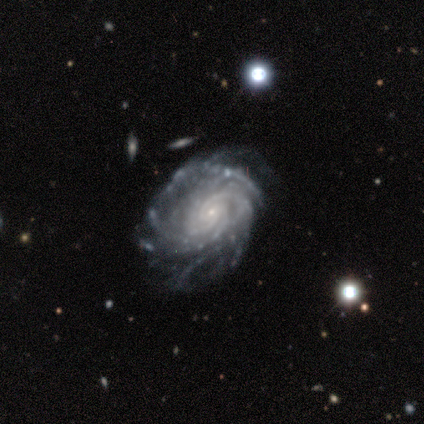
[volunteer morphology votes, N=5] Smooth or featured?
  - featured or disk: 100% *
  - smooth: 0%
  - star or artifact: 0%
Edge-on disk?
  - no: 100% *
  - yes: 0%
Bar?
  - weak: 40% * (tied)
  - no: 40% * (tied)
  - strong: 20%
Spiral arms?
  - yes: 100% *
  - no: 0%
Spiral winding?
  - tight: 100% *
  - medium: 0%
  - loose: 0%
Spiral arm count?
  - 4: 40% *
  - 2: 20%
  - 3: 20%
  - can't tell: 20%
  - 1: 0%
  - more than 4: 0%
Bulge size?
  - small: 100% *
  - dominant: 0%
  - large: 0%
  - moderate: 0%
  - none: 0%
Merging?
  - none: 80% *
  - minor disturbance: 20%
  - major disturbance: 0%
  - merger: 0%